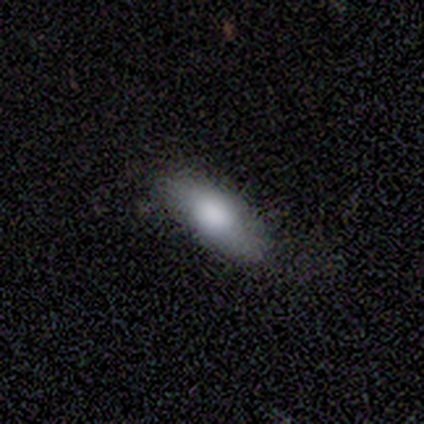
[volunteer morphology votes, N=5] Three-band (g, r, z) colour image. It shows a smooth galaxy with no disk features (100%) that is in between round and cigar-shaped (100%). Merging: none (100%).